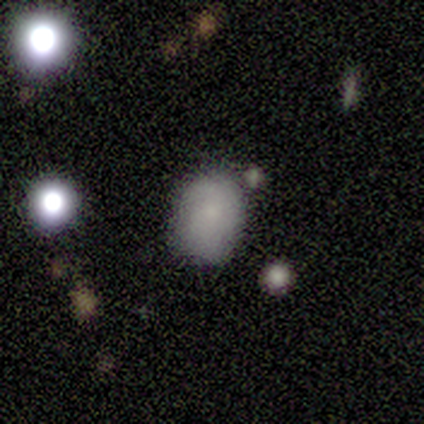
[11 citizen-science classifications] smooth 73%, star or artifact 27%, featured or disk 0%. Down the decision tree: how rounded — in between (62%); merging — none (62%).